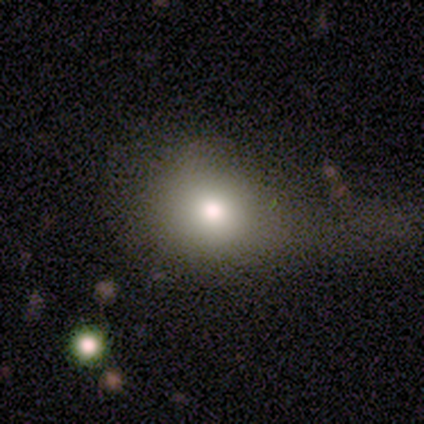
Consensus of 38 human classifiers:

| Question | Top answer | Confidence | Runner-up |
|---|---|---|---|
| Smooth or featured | smooth | 74% | featured or disk (13%) |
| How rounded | round | 61% | in between (39%) |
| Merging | none | 42% | major disturbance (30%) |